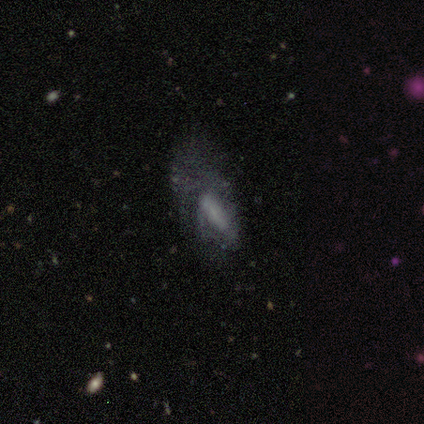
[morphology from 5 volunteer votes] This is clearly a smooth galaxy (80%). How rounded: possibly in between (50%, tied with cigar-shaped). Merging: clearly major disturbance (80%).